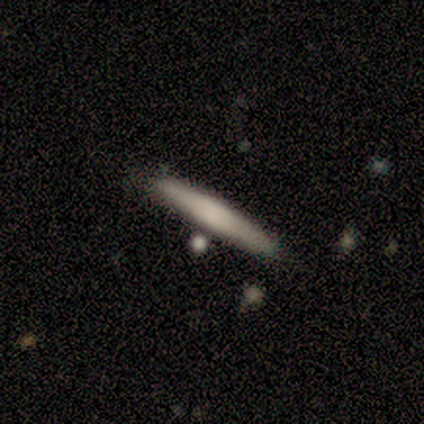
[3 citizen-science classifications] Volunteers were most divided on "smooth or featured": smooth: 67%, featured or disk: 33%, star or artifact: 0%. More confident: how rounded — cigar-shaped (100%); merging — none (67%).